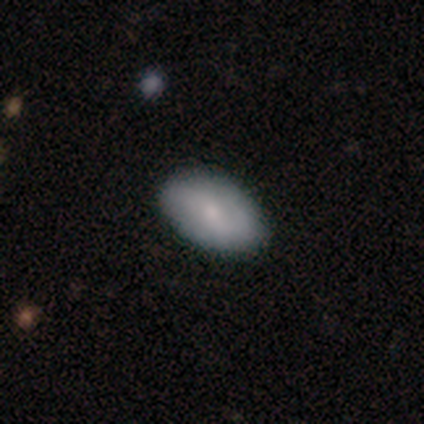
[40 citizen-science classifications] Smooth or featured?
  - smooth: 62% *
  - featured or disk: 32%
  - star or artifact: 5%
How rounded?
  - in between: 92% *
  - round: 8%
  - cigar-shaped: 0%
Merging?
  - none: 47% *
  - minor disturbance: 8%
  - merger: 5%
  - major disturbance: 3%